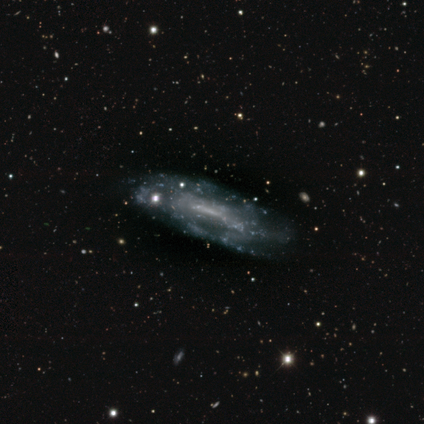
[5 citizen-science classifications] This appears to be a featured or disk galaxy (100%) with a weak bar (75%), 1 (33%, tied with 2 and 3) tight (33%, tied with medium and loose) spiral arms (75%) and no central bulge (75%). Merging: minor disturbance (60%).